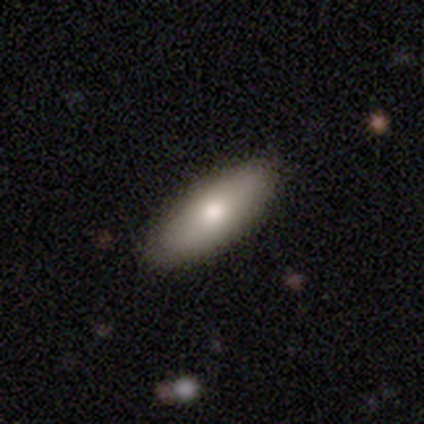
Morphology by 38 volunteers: smooth-or-featured: smooth: 76% | featured or disk: 18% | star or artifact: 5%
  how-rounded: in between: 83% | cigar-shaped: 17% | round: 0%
  merging: none: 81% | minor disturbance: 19% | major disturbance: 0% | merger: 0%